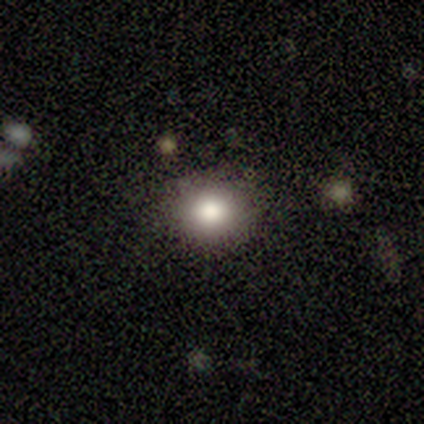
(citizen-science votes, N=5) Smooth or featured: smooth — 80% (featured or disk — 20%)
How rounded: round — 100%
Merging: none — 100%